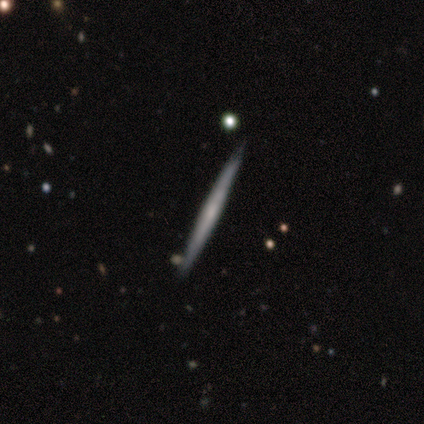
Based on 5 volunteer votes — Q: Smooth or featured?
A: smooth (60%); runner-up: featured or disk (20%)
Q: How rounded?
A: cigar-shaped (100%)
Q: Merging?
A: none (75%); runner-up: minor disturbance (25%)